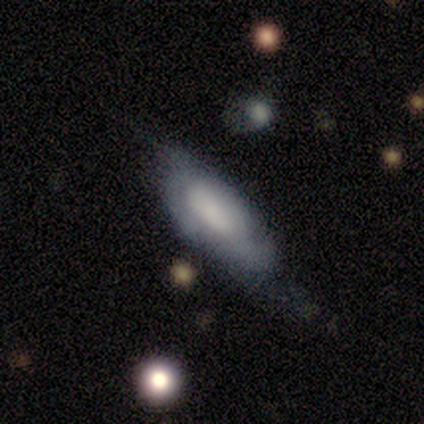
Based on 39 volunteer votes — This is possibly a smooth galaxy (46%). How rounded: likely in between (78%). Merging: possibly none (46%).